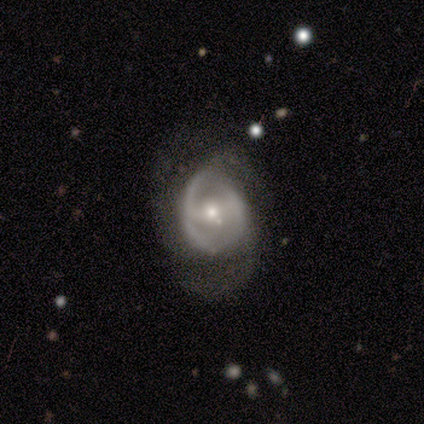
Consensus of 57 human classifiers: This appears to be a featured or disk galaxy (79%) with a weak bar (49%), 2 (42%) medium (52%) spiral arms (73%) and a moderate central bulge (64%). Merging: none (42%).